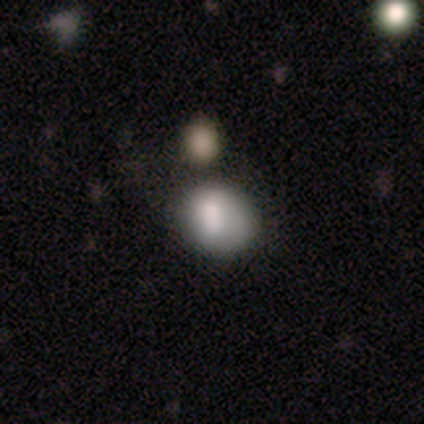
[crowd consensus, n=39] Smooth or featured? smooth (74%)
How rounded? round (55%)
Merging? merger (34%)